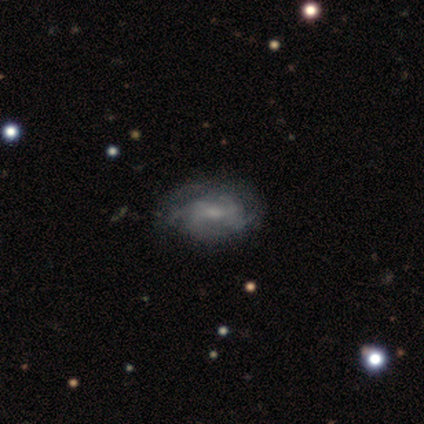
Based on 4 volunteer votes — Smooth or featured? 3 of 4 (75%) said featured or disk. Edge-on disk? 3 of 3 (100%) said no. Bar? 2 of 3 (67%) said weak. Spiral arms? 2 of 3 (67%) said yes. Spiral winding? 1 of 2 (50%, tied with medium) said tight. Spiral arm count? 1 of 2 (50%, tied with can't tell) said 3. Bulge size? 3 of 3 (100%) said small. Merging? 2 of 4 (50%) said minor disturbance.